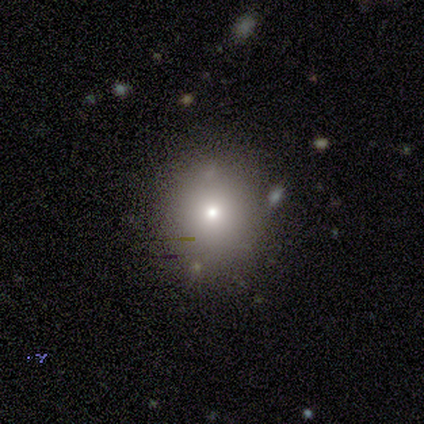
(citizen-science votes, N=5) Volunteers were most divided on "how rounded": round: 75%, in between: 25%, cigar-shaped: 0%. More confident: smooth or featured — smooth (80%); merging — none (80%).